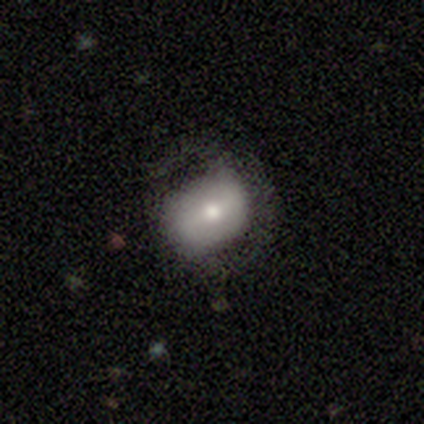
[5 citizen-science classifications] Smooth or featured? smooth (60%)
How rounded? round (67%)
Merging? none (60%)